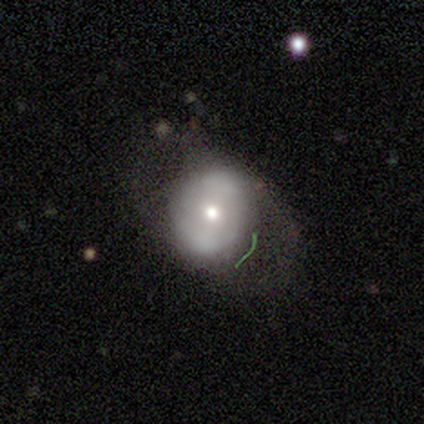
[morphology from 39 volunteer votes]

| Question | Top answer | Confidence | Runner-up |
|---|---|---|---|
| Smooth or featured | smooth | 46% | tied: featured or disk (46%) |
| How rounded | round | 72% | in between (28%) |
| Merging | none | 47% | minor disturbance (33%) |